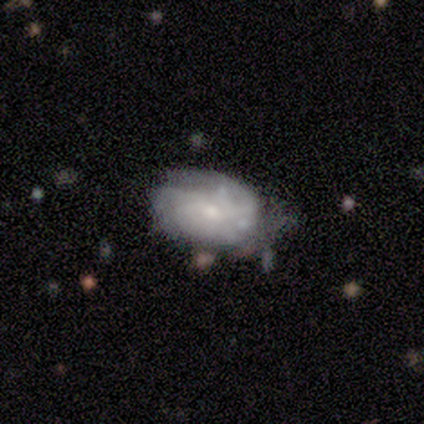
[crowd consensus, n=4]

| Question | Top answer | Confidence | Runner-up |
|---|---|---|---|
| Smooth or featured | featured or disk | 100% | — |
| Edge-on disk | no | 100% | — |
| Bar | no | 100% | — |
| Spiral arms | yes | 75% | no (25%) |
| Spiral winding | tight | 67% | medium (33%) |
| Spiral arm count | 2 | 67% | 1 (33%) |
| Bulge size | moderate | 50% | tied: small (50%) |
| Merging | none | 50% | tied: major disturbance (50%) |